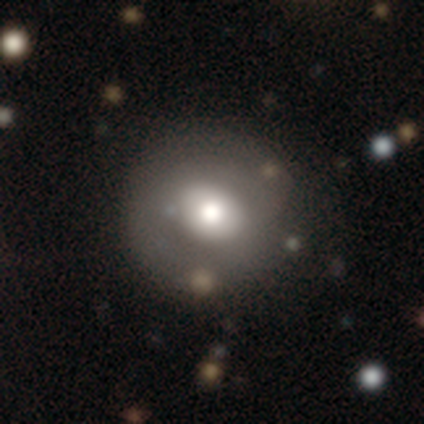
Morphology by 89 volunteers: Smooth or featured? 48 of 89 (54%) said smooth. How rounded? 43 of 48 (90%) said round. Merging? 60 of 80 (75%) said none.